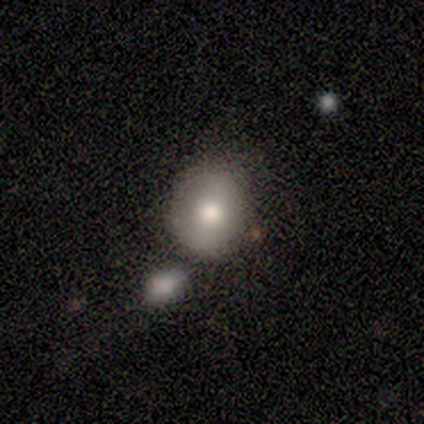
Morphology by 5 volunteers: This appears to be a smooth galaxy with no disk features (80%) that is round (100%). Merging: none (75%).